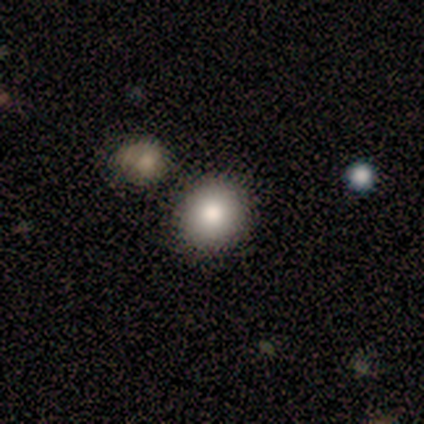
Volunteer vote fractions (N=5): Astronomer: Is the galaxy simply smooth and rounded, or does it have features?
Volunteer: smooth — 80%.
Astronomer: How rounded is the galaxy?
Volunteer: round — 100%.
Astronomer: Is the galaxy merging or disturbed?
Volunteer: none — 100%.